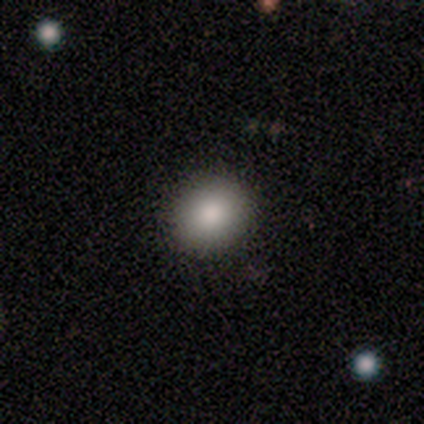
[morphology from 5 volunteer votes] smooth_or_featured: smooth (p=0.60) [alt: featured or disk p=0.20]
how_rounded: round (p=1.00)
merging: none (p=1.00)